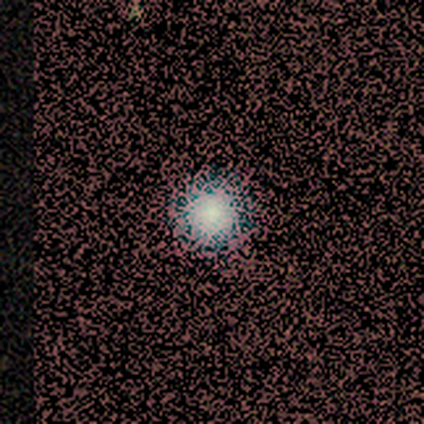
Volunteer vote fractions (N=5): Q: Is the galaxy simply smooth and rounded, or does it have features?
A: smooth — 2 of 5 (40%, tied with star or artifact).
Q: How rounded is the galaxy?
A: round — 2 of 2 (100%).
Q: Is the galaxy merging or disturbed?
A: none — 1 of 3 (33%, tied with minor disturbance and merger).